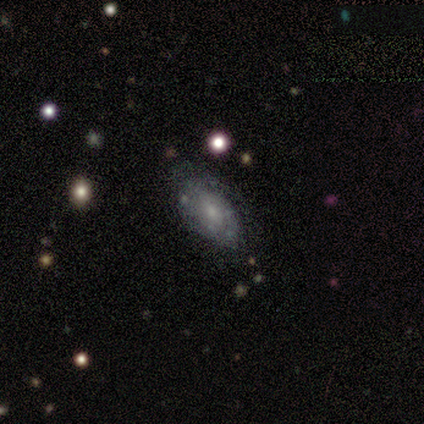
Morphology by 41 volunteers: Smooth or featured: featured or disk — 66% (smooth — 29%)
Edge-on disk: no — 96% (yes — 4%)
Bar: no — 73% (weak — 19%)
Spiral arms: yes — 81% (no — 19%)
Spiral winding: medium — 48% (tight — 43%)
Spiral arm count: can't tell — 62% (1 — 19%)
Bulge size: small — 65% (none — 15%)
Merging: none — 72% (minor disturbance — 21%)